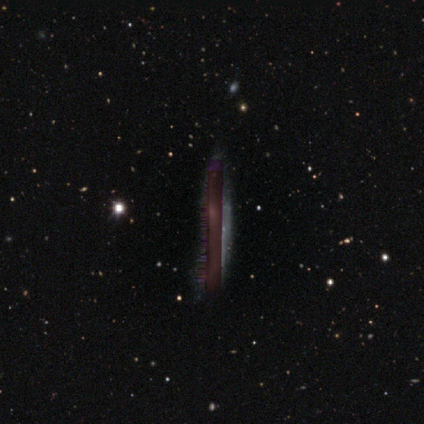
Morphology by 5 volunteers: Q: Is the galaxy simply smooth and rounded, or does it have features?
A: star or artifact — 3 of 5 (60%).